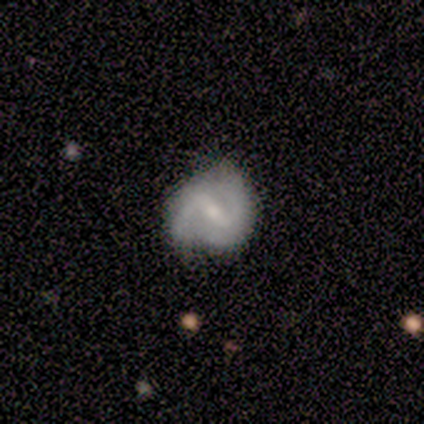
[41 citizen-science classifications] smooth_or_featured: featured or disk (p=0.80) [alt: smooth p=0.17]
disk_edge_on: no (p=0.97) [alt: yes p=0.03]
bar: strong (p=0.50) [alt: weak p=0.47]
has_spiral_arms: yes (p=0.97) [alt: no p=0.03]
spiral_winding: medium (p=0.65) [alt: loose p=0.32]
spiral_arm_count: 2 (p=0.97) [alt: can't tell p=0.03]
bulge_size: small (p=0.56) [alt: moderate p=0.28]
merging: none (p=0.50) [alt: minor disturbance p=0.35]